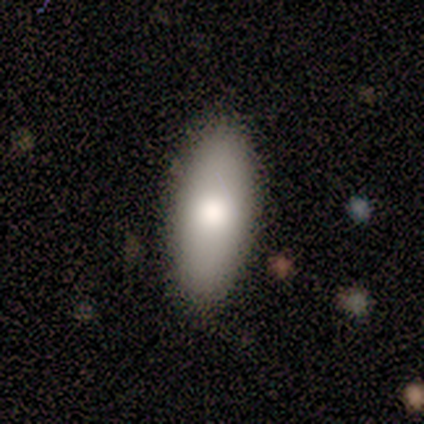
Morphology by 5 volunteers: Smooth or featured? smooth (80%)
How rounded? in between (75%)
Merging? none (80%)